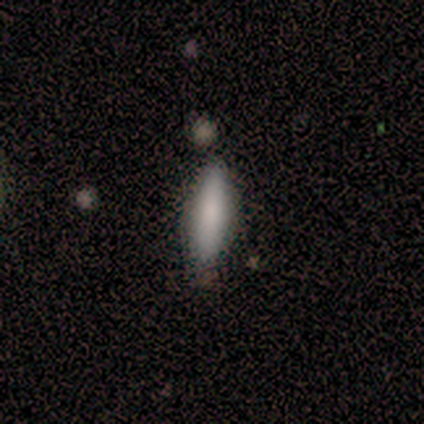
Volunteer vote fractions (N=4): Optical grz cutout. It shows a smooth galaxy with no disk features (100%) that is in between round and cigar-shaped (75%). Merging: none (100%).